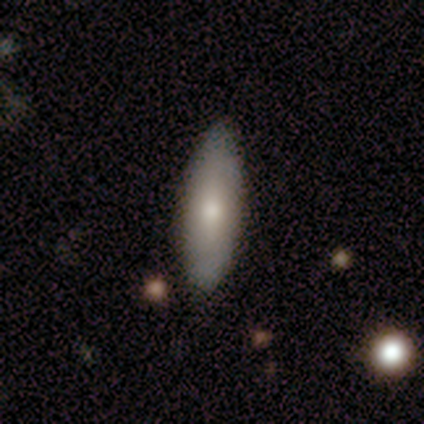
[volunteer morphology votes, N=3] A smooth galaxy with no disk features (67%) that is in between round and cigar-shaped (50%, tied with cigar-shaped).

Vote fractions:
- Smooth or featured? smooth: 67% / star or artifact: 33% / featured or disk: 0%
- How rounded? in between: 50% (tied) / cigar-shaped: 50% (tied) / round: 0%
- Merging? none: 100% / minor disturbance: 0% / major disturbance: 0% / merger: 0%